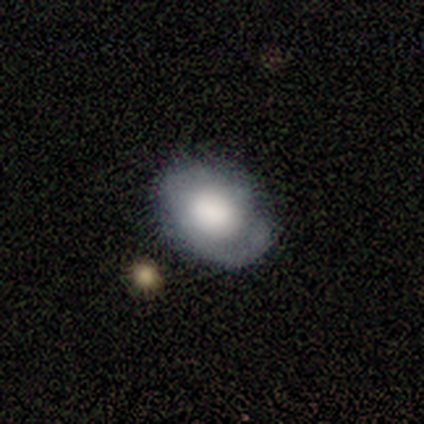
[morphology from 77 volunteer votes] featured or disk 58%, smooth 39%, star or artifact 3%. Down the decision tree: edge-on disk — no (98%); bar — no (86%); spiral arms — yes (59%); spiral arm count — 2 (46%); spiral winding — tight (54%); bulge size — large (59%); merging — none (48%).